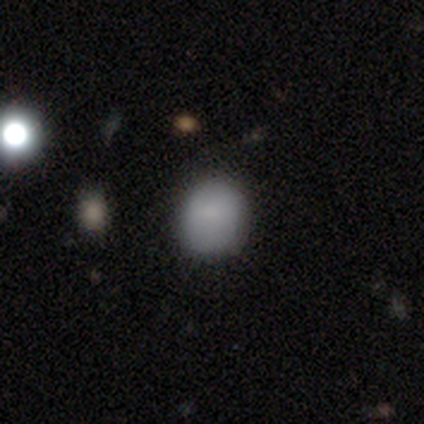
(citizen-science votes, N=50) Overall: smooth (80%). How rounded: round (82%). Merging: none (80%).